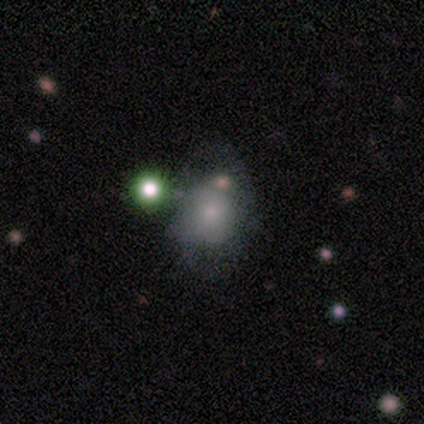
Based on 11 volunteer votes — Morphology: type=smooth (64%); roundness=in between (71%); merging=none (45%).